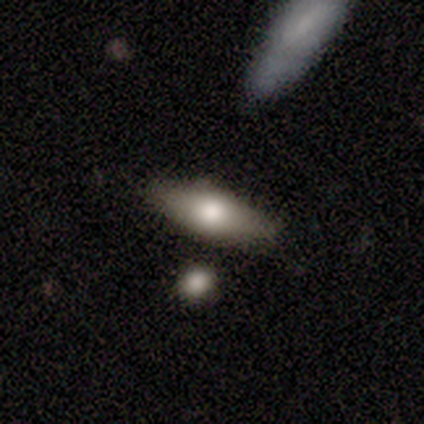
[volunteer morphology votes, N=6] smooth_or_featured: smooth (p=0.67) [alt: featured or disk p=0.33]
how_rounded: in between (p=1.00)
merging: none (p=0.50) [alt: minor disturbance p=0.33]